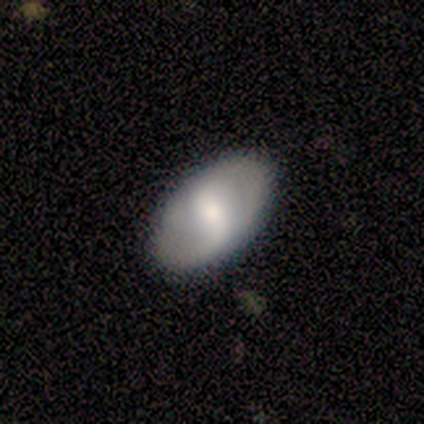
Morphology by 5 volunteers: Smooth or featured? smooth (100%)
How rounded? in between (80%)
Merging? none (80%)